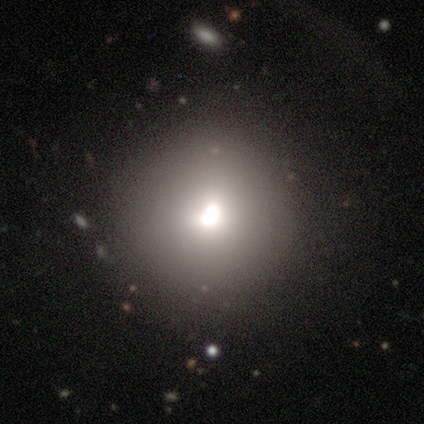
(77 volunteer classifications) smooth 79%, featured or disk 14%, star or artifact 6%. Down the decision tree: how rounded — round (82%); merging — none (38%).